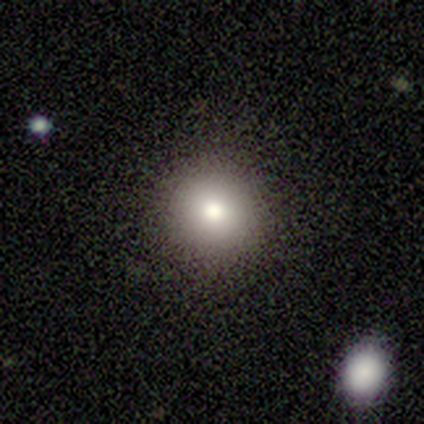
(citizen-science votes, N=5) This appears to be a smooth galaxy with no disk features (80%) that is round (100%). Merging: none (80%).